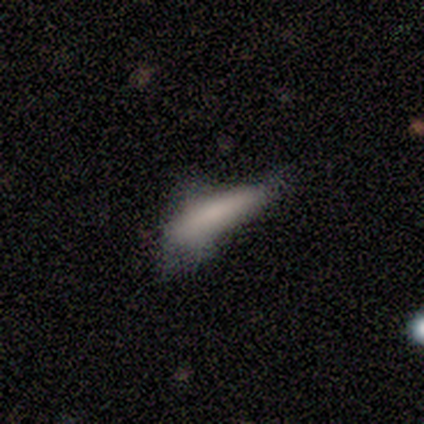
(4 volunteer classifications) Volunteers were most divided on "smooth or featured" (2-way tie): smooth: 50%, featured or disk: 50%, star or artifact: 0%; "how rounded" (2-way tie): in between: 50%, cigar-shaped: 50%, round: 0%. More confident: merging — none (75%).